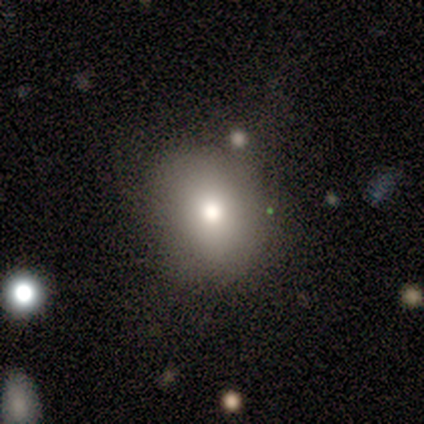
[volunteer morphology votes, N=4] This appears to be a smooth galaxy with no disk features (100%) that is round (75%). Merging: none (75%).